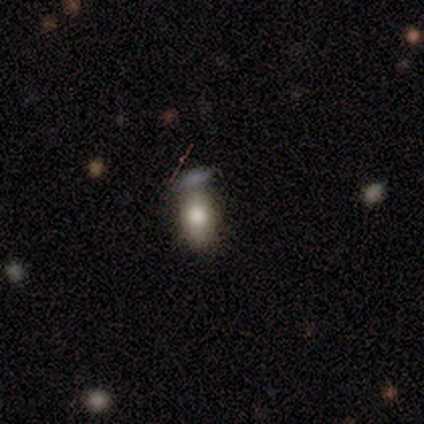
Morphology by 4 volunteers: Q: Smooth or featured?
A: smooth (75%); runner-up: featured or disk (25%)
Q: How rounded?
A: in between (100%)
Q: Merging?
A: none (50%); runner-up: minor disturbance (25%)